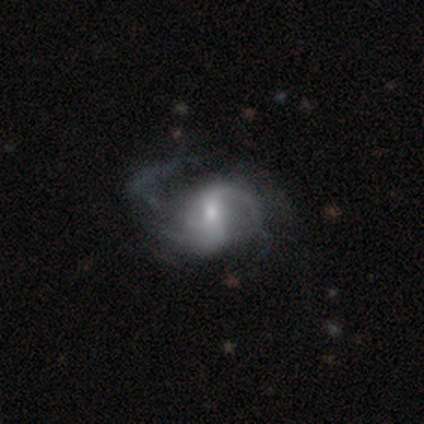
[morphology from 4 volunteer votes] Overall: featured or disk (100%). Edge-on disk: no (100%). Bar: no (50%; strong 25%). Spiral arms: yes (100%). Spiral arm count: 2 (75%). Spiral winding: medium (75%). Bulge size: large (25%, tied with moderate, small and none). Merging: none (75%).